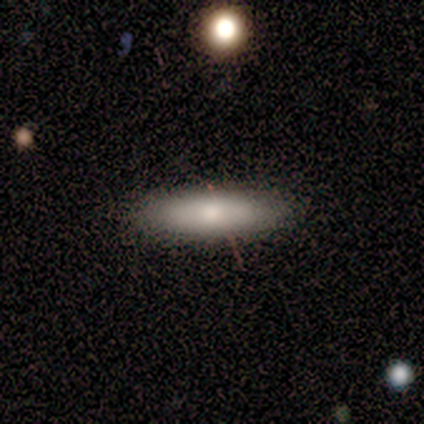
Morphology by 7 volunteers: Overall: smooth (86%). How rounded: cigar-shaped (67%; in between 33%). Merging: none (100%).